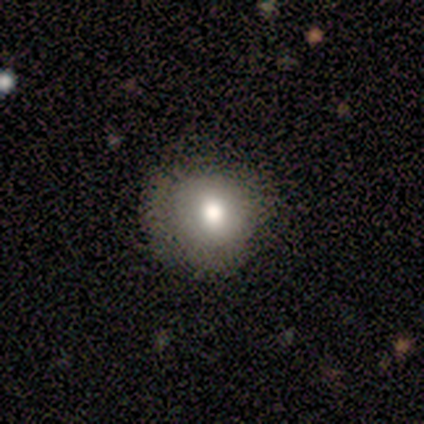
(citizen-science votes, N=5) Smooth or featured? 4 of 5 (80%) said smooth. How rounded? 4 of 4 (100%) said round. Merging? 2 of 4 (50%) said none.